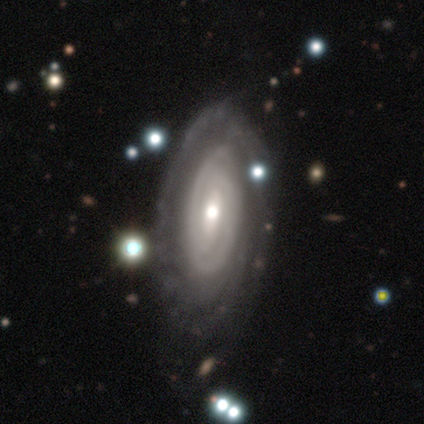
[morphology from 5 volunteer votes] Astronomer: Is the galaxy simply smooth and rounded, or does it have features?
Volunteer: featured or disk — 80%.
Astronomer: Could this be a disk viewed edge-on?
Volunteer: no — 100%.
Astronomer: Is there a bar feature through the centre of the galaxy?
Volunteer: weak — 50%, tied with no at 50%.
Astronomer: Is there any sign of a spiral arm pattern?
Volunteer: yes — 75%.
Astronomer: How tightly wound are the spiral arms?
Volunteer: tight — 100%.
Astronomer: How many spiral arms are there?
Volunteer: can't tell — 100%.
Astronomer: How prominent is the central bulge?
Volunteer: moderate — 50%, tied with small at 50%.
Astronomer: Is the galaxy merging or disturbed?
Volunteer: none — 80%.